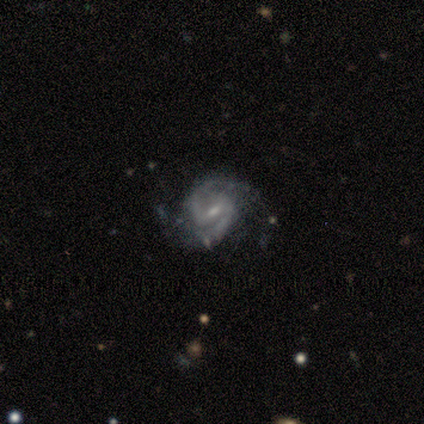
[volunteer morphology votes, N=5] type=featured or disk (100%); edge-on=no (100%); bar=strong (40%, tied with weak); spiral arms=yes (100%); winding=tight (60%); arm count=2 (100%); bulge=moderate (80%); merging=none (80%).